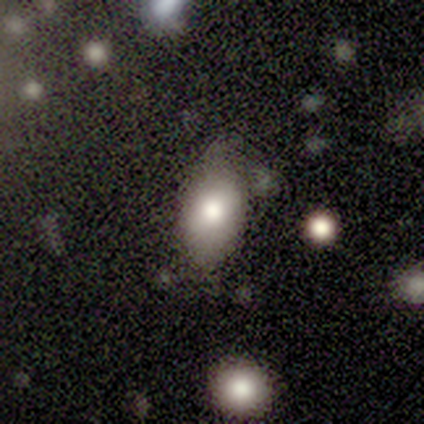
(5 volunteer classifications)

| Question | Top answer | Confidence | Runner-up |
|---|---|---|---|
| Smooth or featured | smooth | 100% | — |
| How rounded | in between | 100% | — |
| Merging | none | 60% | minor disturbance (40%) |